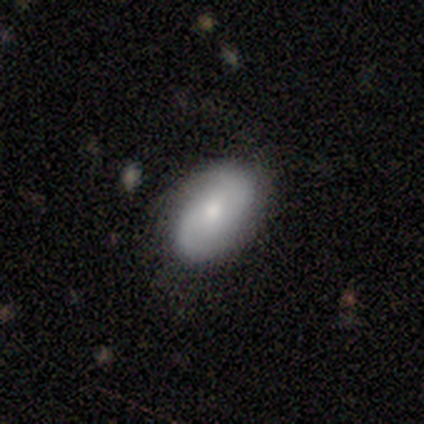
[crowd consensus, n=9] This is possibly a featured or disk galaxy (56%). It is clearly not viewed edge-on (100%). Bar: clearly no (80%). Spiral arm pattern: clearly yes (80%). Spiral arm count: clearly 2 (100%). Spiral winding: possibly tight (50%, tied with loose). Central bulge: marginally moderate (40%, tied with small). Merging: clearly none (89%).